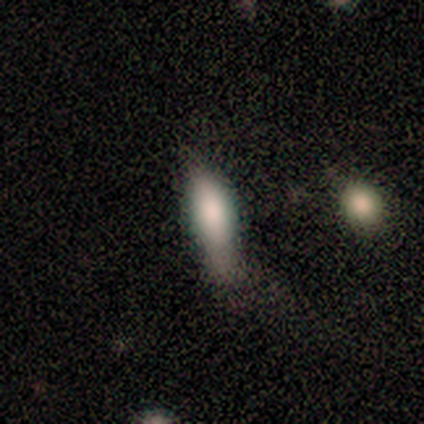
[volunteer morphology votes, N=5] A smooth galaxy with no disk features (80%) that is in between round and cigar-shaped (75%). Merging: none (40%, tied with major disturbance).